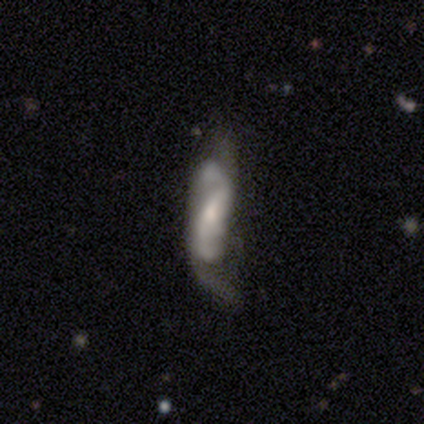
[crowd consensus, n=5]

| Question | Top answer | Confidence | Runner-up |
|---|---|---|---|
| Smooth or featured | featured or disk | 60% | smooth (40%) |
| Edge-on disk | no | 100% | — |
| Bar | no | 67% | weak (33%) |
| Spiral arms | yes | 100% | — |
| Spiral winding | loose | 67% | medium (33%) |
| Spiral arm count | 2 | 100% | — |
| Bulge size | small | 67% | moderate (33%) |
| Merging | major disturbance | 60% | minor disturbance (40%) |